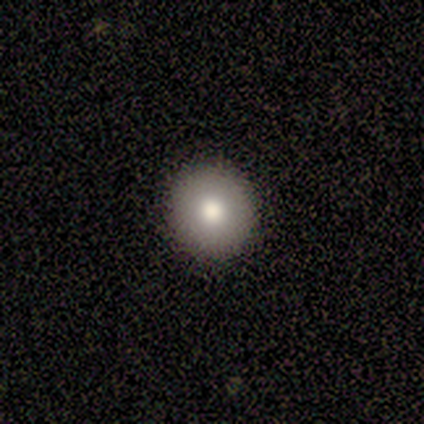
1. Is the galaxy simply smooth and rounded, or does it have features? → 80% smooth, 20% featured or disk, 0% star or artifact.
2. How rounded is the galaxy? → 100% round, 0% in between, 0% cigar-shaped.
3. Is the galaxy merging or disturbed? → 100% none, 0% minor disturbance, 0% major disturbance, 0% merger.